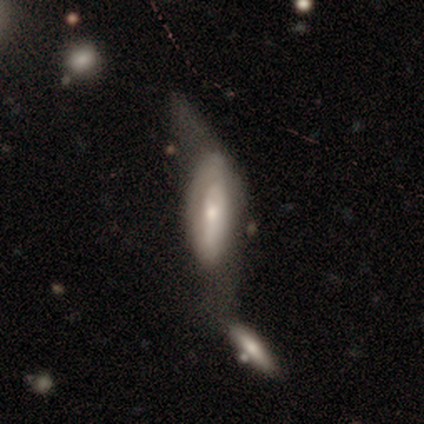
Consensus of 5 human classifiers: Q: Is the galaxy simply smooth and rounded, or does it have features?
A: smooth — 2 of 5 (40%, tied with featured or disk).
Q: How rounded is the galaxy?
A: in between — 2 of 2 (100%).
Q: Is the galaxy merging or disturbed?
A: none — 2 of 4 (50%).